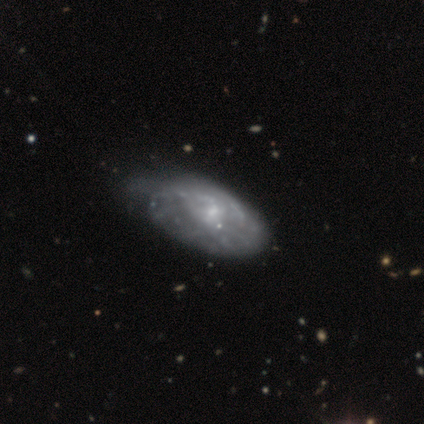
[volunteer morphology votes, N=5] Q: Smooth or featured?
A: featured or disk (60%); runner-up: smooth (20%)
Q: Edge-on disk?
A: no (100%)
Q: Bar?
A: no (100%)
Q: Spiral arms?
A: no (100%)
Q: Bulge size?
A: large (33%); tied with: moderate (33%); small (33%)
Q: Merging?
A: major disturbance (50%); runner-up: none (25%)